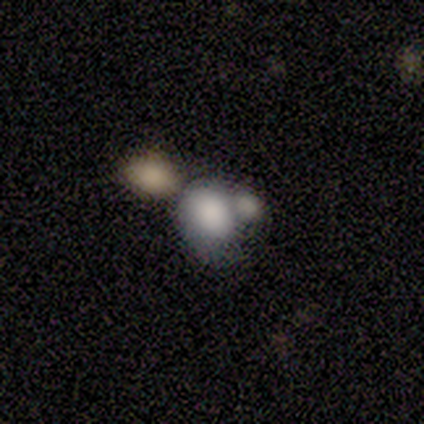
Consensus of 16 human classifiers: This is clearly a smooth galaxy (81%). How rounded: clearly in between (85%). Merging: possibly merger (47%).